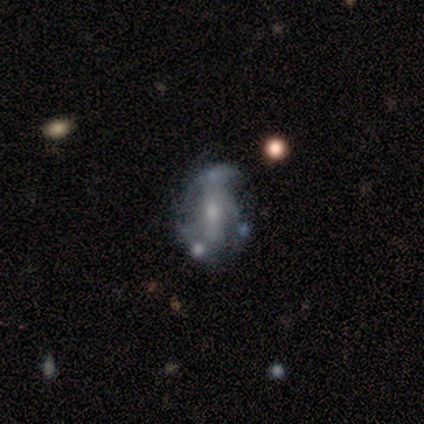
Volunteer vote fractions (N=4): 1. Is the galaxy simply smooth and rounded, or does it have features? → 50% featured or disk, 25% smooth, 25% star or artifact.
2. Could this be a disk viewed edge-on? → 100% no, 0% yes.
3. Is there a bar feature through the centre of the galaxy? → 50% weak (tied), 50% no (tied), 0% strong.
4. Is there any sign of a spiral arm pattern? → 50% yes (tied), 50% no (tied).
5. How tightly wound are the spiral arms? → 100% medium, 0% tight, 0% loose.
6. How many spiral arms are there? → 100% 1, 0% 2, 0% 3, 0% 4, 0% more than 4, 0% can't tell.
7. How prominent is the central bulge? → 100% small, 0% dominant, 0% large, 0% moderate, 0% none.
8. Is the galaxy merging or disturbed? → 67% none, 33% merger, 0% minor disturbance, 0% major disturbance.